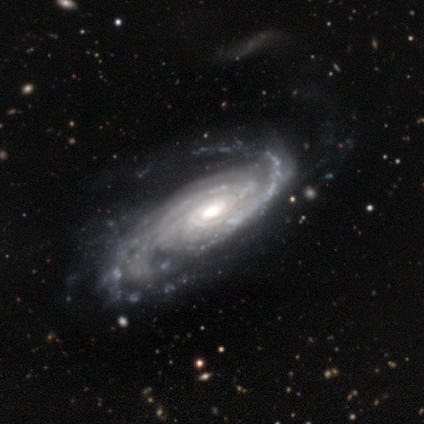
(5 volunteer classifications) Smooth or featured? featured or disk (100%)
Edge-on disk? no (100%)
Bar? no (80%)
Spiral arms? yes (100%)
Spiral winding? tight (40%, tied with loose)
Spiral arm count? 2 (80%)
Bulge size? moderate (80%)
Merging? none (80%)